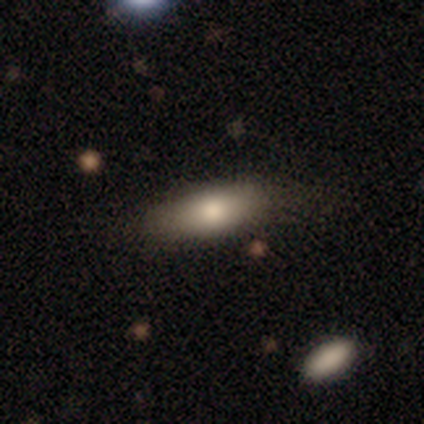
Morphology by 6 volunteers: smooth-or-featured: smooth: 50% (tied) | featured or disk: 50% (tied) | star or artifact: 0%
  how-rounded: in between: 100% | round: 0% | cigar-shaped: 0%
  merging: none: 100% | minor disturbance: 0% | major disturbance: 0% | merger: 0%